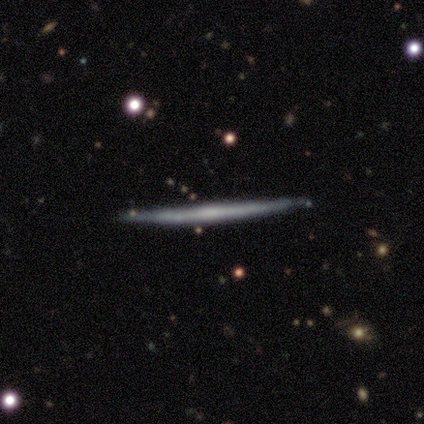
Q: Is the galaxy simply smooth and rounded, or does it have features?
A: featured or disk — 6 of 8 (75%).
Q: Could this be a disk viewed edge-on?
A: yes — 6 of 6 (100%).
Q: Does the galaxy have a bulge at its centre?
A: none — 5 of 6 (83%).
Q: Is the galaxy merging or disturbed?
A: none — 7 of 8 (88%).